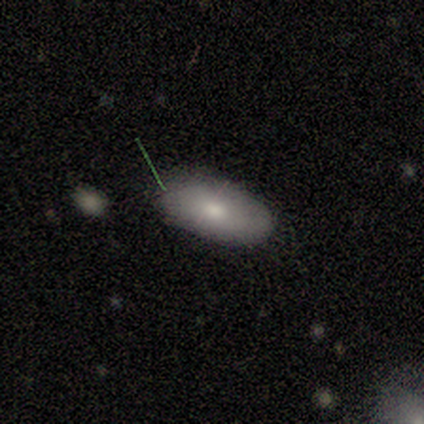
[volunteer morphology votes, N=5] This appears to be a smooth galaxy with no disk features (80%) that is in between round and cigar-shaped (100%). Merging: none (80%).